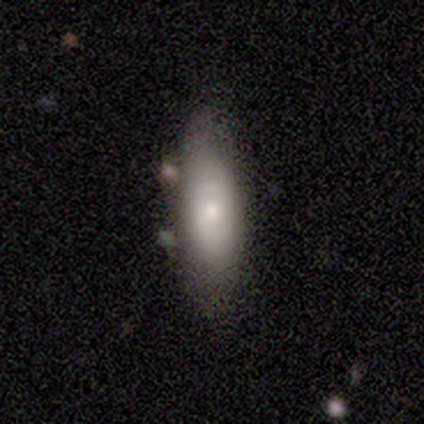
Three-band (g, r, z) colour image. It shows a smooth galaxy with no disk features (50%, tied with featured or disk) that is in between round and cigar-shaped (100%). Merging: none (100%).